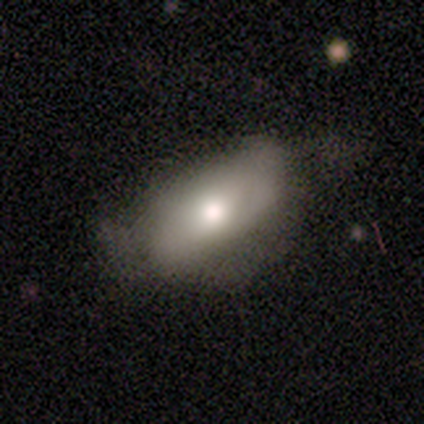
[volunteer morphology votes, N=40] Overall: smooth (68%). How rounded: in between (100%). Merging: minor disturbance (43%; none 32%).